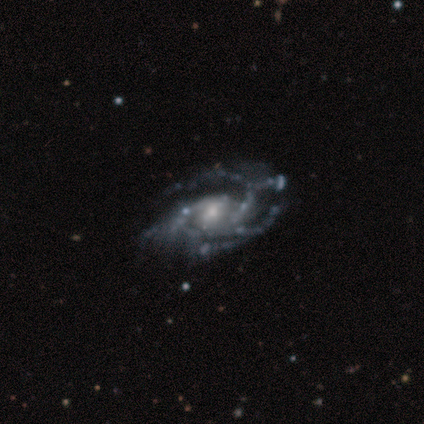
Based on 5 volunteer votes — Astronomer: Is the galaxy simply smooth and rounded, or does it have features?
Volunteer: featured or disk — 100%.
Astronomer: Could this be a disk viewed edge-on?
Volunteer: no — 100%.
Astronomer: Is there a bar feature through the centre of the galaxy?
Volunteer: strong — 40%, tied with no at 40%.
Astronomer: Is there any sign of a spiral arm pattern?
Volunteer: yes — 100%.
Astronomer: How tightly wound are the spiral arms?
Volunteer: medium — 60%.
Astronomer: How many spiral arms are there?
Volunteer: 3 — 40% (runner-up: 2, 20%).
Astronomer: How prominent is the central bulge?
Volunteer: moderate — 60% (runner-up: small, 40%).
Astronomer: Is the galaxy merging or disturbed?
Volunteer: none — 60% (runner-up: major disturbance, 40%).